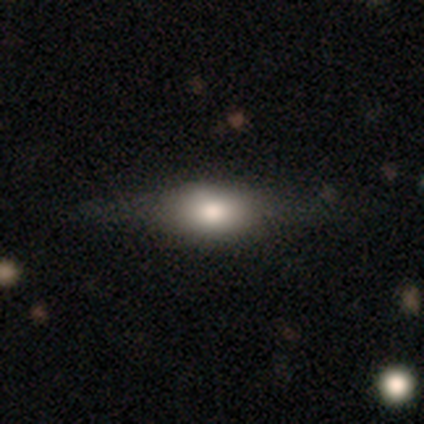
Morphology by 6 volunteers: This appears to be a smooth galaxy with no disk features (50%, tied with featured or disk) that is in between round and cigar-shaped (67%). Merging: none (100%).